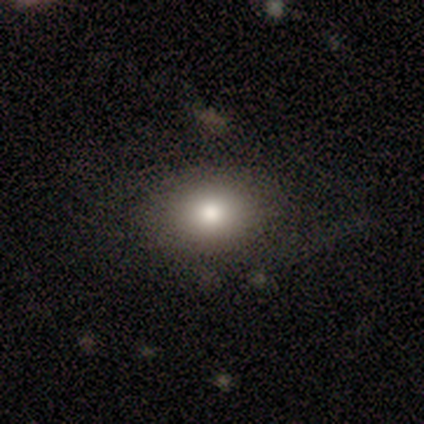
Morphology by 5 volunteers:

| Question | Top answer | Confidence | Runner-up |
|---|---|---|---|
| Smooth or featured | smooth | 80% | featured or disk (20%) |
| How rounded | in between | 100% | — |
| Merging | none | 100% | — |